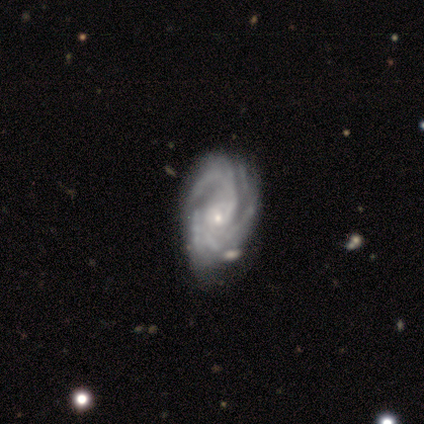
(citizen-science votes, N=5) This is clearly a featured or disk galaxy (100%). It is clearly not viewed edge-on (100%). Bar: clearly no (80%). Spiral arm pattern: clearly yes (80%). Spiral arm count: possibly 3 (50%, tied with 4). Spiral winding: likely tight (75%). Central bulge: clearly small (80%). Merging: clearly none (100%).